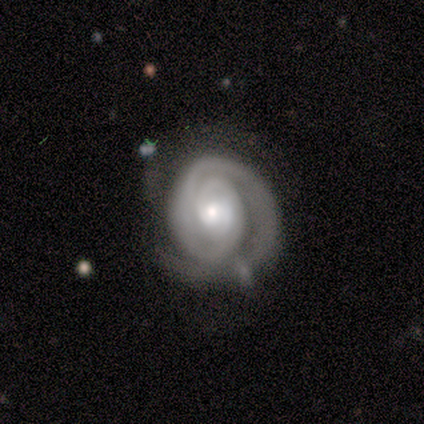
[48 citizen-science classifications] Smooth or featured: featured or disk — 90% (smooth — 6%)
Edge-on disk: no — 98% (yes — 2%)
Bar: no — 79% (weak — 14%)
Spiral arms: yes — 98% (no — 2%)
Spiral winding: tight — 88% (medium — 7%)
Spiral arm count: 1 — 51% (2 — 34%)
Bulge size: moderate — 62% (small — 31%)
Merging: none — 61% (minor disturbance — 35%)